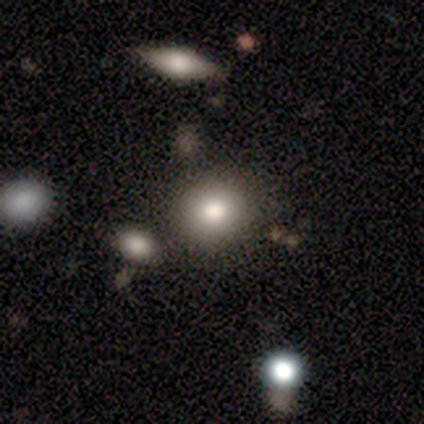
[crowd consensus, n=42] smooth 81%, star or artifact 12%, featured or disk 7%. Down the decision tree: how rounded — round (82%); merging — none (86%).